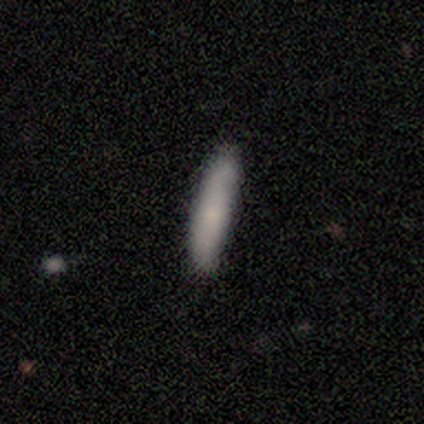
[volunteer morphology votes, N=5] Volunteers were most divided on "smooth or featured": smooth: 80%, featured or disk: 20%, star or artifact: 0%. More confident: how rounded — cigar-shaped (100%); merging — none (80%).